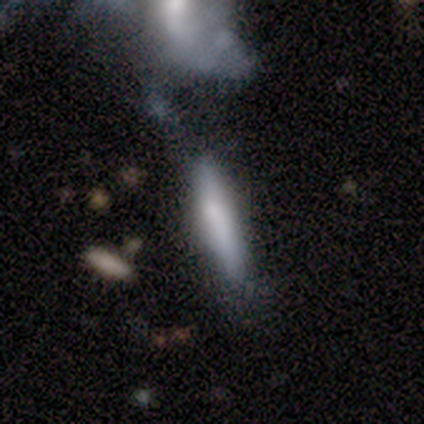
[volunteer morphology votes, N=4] Q: Smooth or featured?
A: smooth (75%); runner-up: featured or disk (25%)
Q: How rounded?
A: cigar-shaped (100%)
Q: Merging?
A: minor disturbance (50%); runner-up: major disturbance (25%)